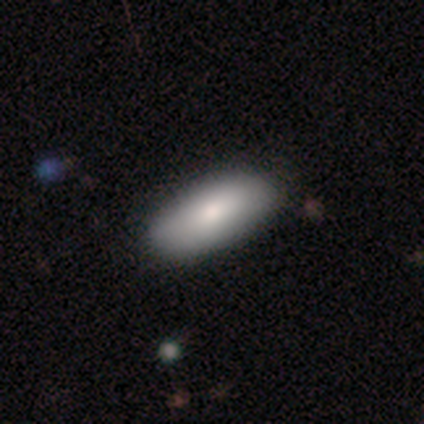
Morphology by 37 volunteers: Smooth or featured? 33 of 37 (89%) said smooth. How rounded? 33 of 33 (100%) said in between. Merging? 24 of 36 (67%) said none.